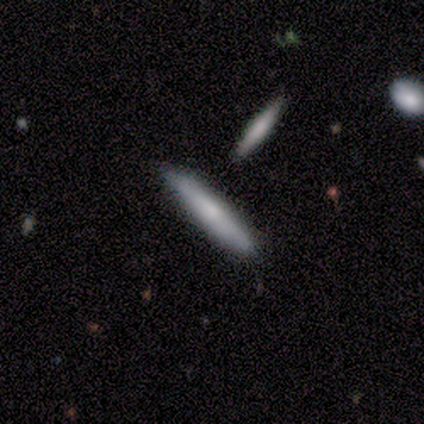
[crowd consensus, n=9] Smooth or featured: smooth — 44% (tied with featured or disk — 44%)
How rounded: cigar-shaped — 75% (in between — 25%)
Merging: none — 75% (minor disturbance — 12%)